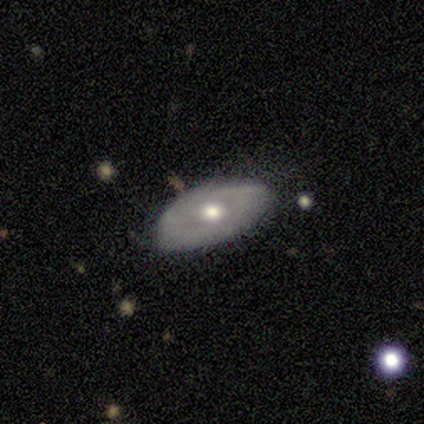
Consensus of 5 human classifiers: Overall: smooth (60%; featured or disk 40%). How rounded: in between (100%). Merging: none (60%; minor disturbance 40%).